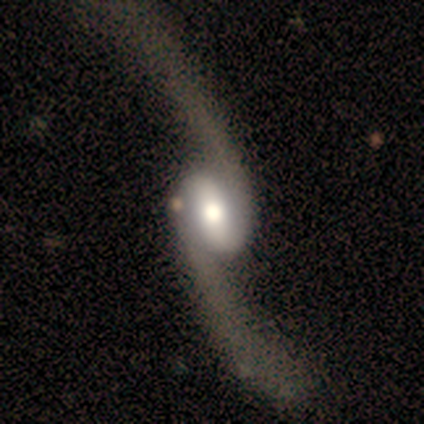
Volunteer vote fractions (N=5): Q: Smooth or featured?
A: featured or disk (100%)
Q: Edge-on disk?
A: no (100%)
Q: Bar?
A: strong (40%); tied with: weak (40%)
Q: Spiral arms?
A: yes (100%)
Q: Spiral winding?
A: loose (100%)
Q: Spiral arm count?
A: 2 (100%)
Q: Bulge size?
A: moderate (40%); tied with: small (40%)
Q: Merging?
A: none (60%); runner-up: major disturbance (40%)